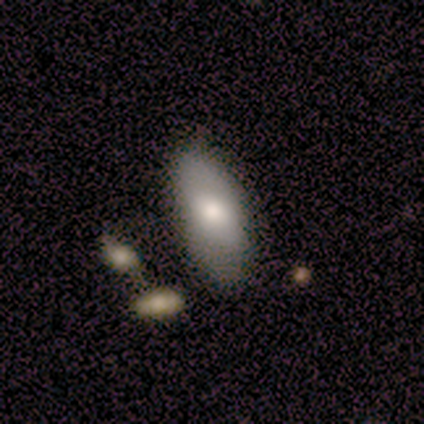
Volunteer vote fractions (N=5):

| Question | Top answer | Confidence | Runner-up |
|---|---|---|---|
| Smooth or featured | smooth | 100% | — |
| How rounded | in between | 100% | — |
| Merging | none | 80% | minor disturbance (20%) |